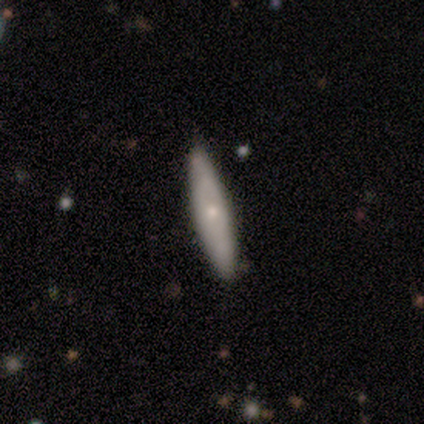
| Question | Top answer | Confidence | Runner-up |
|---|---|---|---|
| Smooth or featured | featured or disk | 50% | smooth (40%) |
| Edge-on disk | no | 60% | yes (40%) |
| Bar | no | 100% | — |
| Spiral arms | no | 67% | yes (33%) |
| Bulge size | small | 100% | — |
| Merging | none | 89% | minor disturbance (11%) |